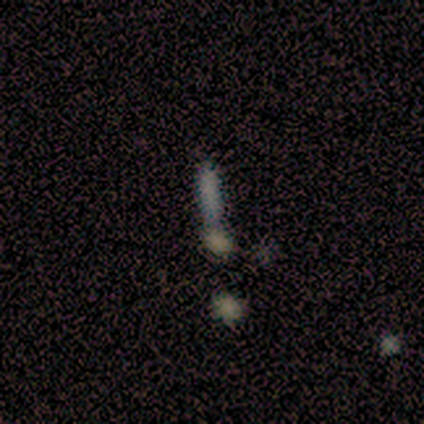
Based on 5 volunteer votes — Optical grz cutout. It shows a smooth galaxy with no disk features (100%) that is cigar-shaped (60%). Merging: minor disturbance (60%).